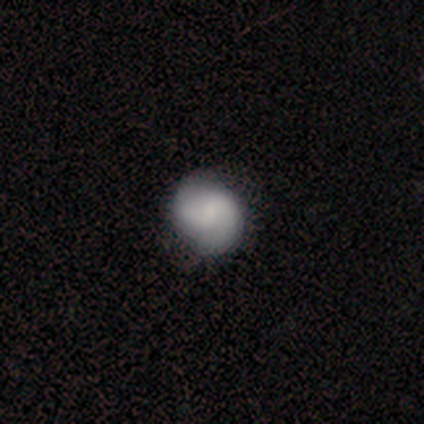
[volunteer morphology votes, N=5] Smooth or featured? featured or disk (60%)
Edge-on disk? no (67%)
Bar? no (100%)
Spiral arms? yes (100%)
Spiral winding? tight (50%, tied with medium)
Spiral arm count? 2 (100%)
Bulge size? moderate (100%)
Merging? none (80%)